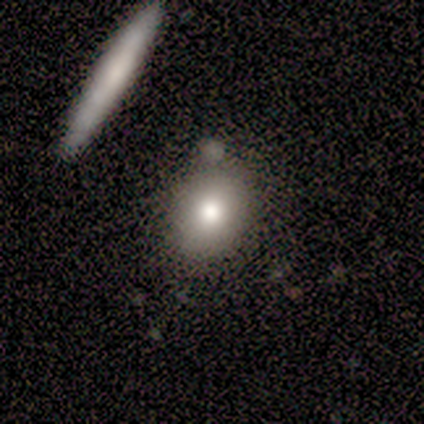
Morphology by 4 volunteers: Smooth or featured: smooth — 50% (featured or disk — 25%)
How rounded: in between — 100%
Merging: none — 100%